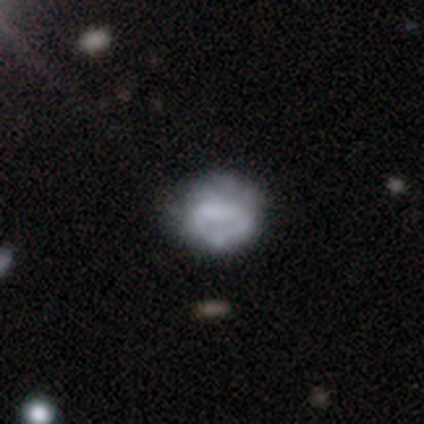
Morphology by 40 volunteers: Smooth or featured? 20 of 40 (50%) said smooth. How rounded? 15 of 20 (75%) said round. Merging? 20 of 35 (57%) said none.